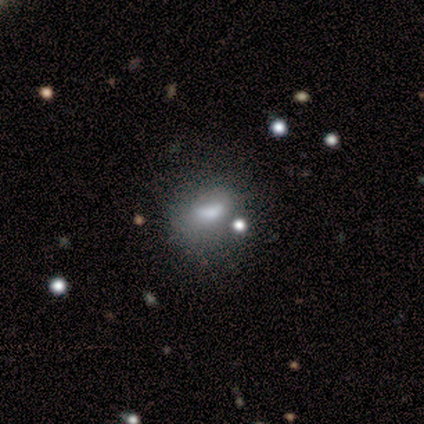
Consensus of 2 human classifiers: Smooth or featured: smooth — 100%
How rounded: round — 50% (tied with in between — 50%)
Merging: none — 50% (tied with major disturbance — 50%)